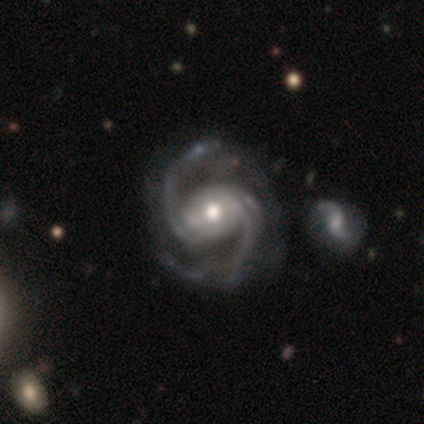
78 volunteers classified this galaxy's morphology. A featured or disk galaxy (97%) with no bar (51%), 2 (82%) medium (70%) spiral arms (100%) and a moderate central bulge (74%).

Vote fractions:
- Smooth or featured? featured or disk: 97% / star or artifact: 3% / smooth: 0%
- Edge-on disk? no: 100% / yes: 0%
- Bar? no: 51% / weak: 28% / strong: 21%
- Spiral arms? yes: 100% / no: 0%
- Spiral winding? medium: 70% / loose: 24% / tight: 7%
- Spiral arm count? 2: 82% / 3: 13% / 4: 3% / 1: 1% / can't tell: 1% / more than 4: 0%
- Bulge size? moderate: 74% / small: 17% / large: 9% / dominant: 0% / none: 0%
- Merging? none: 32% / minor disturbance: 14% / merger: 13% / major disturbance: 0%